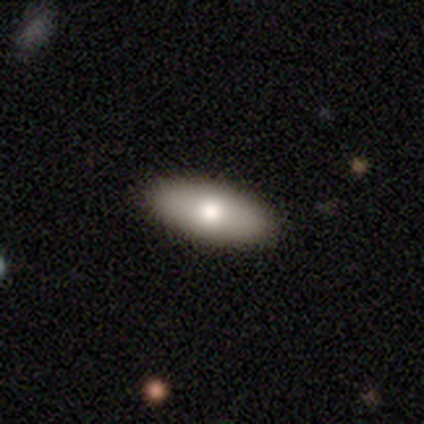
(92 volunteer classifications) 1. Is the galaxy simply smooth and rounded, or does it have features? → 74% smooth, 21% featured or disk, 5% star or artifact.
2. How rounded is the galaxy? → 85% in between, 13% cigar-shaped, 1% round.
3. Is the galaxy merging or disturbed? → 94% none, 5% minor disturbance, 1% merger, 0% major disturbance.